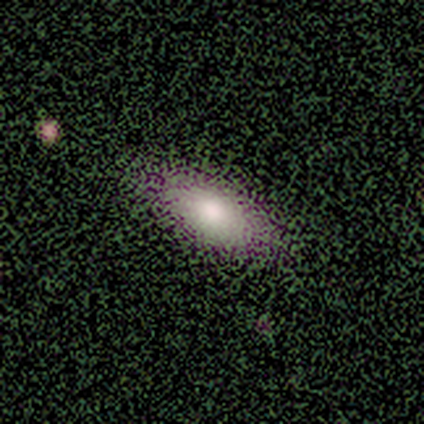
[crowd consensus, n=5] Overall: smooth (80%). How rounded: in between (100%). Merging: none (100%).